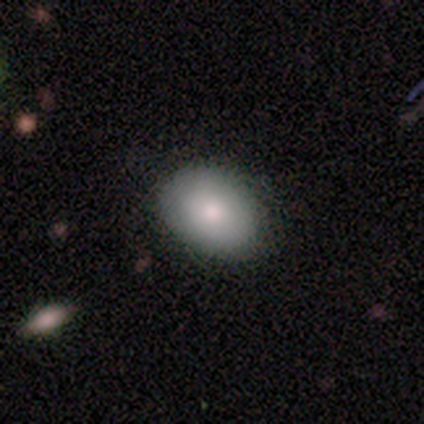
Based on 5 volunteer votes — A smooth galaxy with no disk features (60%) that is in between round and cigar-shaped (100%).

Vote fractions:
- Smooth or featured? smooth: 60% / featured or disk: 40% / star or artifact: 0%
- How rounded? in between: 100% / round: 0% / cigar-shaped: 0%
- Merging? none: 60% / minor disturbance: 20% / major disturbance: 20% / merger: 0%